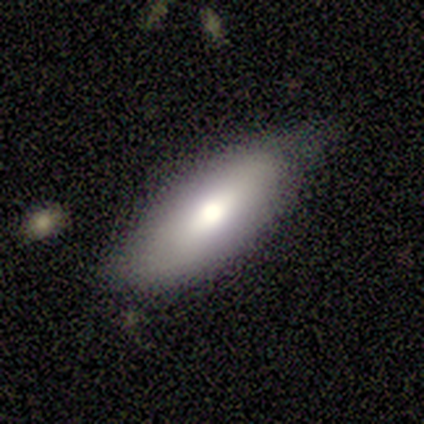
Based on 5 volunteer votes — Smooth or featured? featured or disk (60%)
Edge-on disk? no (67%)
Bar? weak (100%)
Spiral arms? yes (50%, tied with no)
Spiral winding? medium (100%)
Spiral arm count? 2 (100%)
Bulge size? large (50%, tied with moderate)
Merging? minor disturbance (60%)